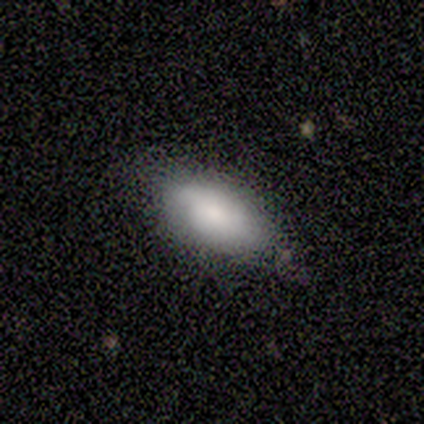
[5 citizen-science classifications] smooth 60%, featured or disk 40%, star or artifact 0%. Down the decision tree: how rounded — in between (67%); merging — minor disturbance (60%).